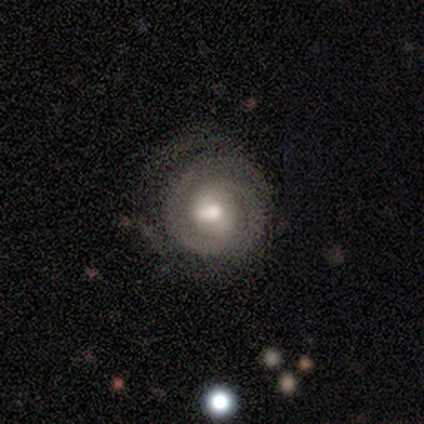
smooth-or-featured: featured or disk: 78% | smooth: 17% | star or artifact: 5%
  disk-edge-on: no: 100% | yes: 0%
    bar: no: 52% | weak: 42% | strong: 6%
    has-spiral-arms: yes: 87% | no: 13%
      spiral-winding: tight: 69% | medium: 17% | loose: 14%
      spiral-arm-count: 2: 43% | can't tell: 40% | 3: 9% | 1: 7% | 4: 2% | more than 4: 0%
    bulge-size: moderate: 70% | small: 19% | large: 9% | none: 1% | dominant: 0%
  merging: none: 70% | major disturbance: 16% | minor disturbance: 13% | merger: 1%